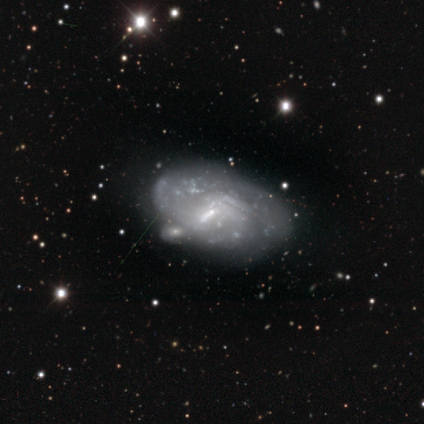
Smooth or featured: featured or disk — 60% (smooth — 40%)
Edge-on disk: no — 100%
Bar: no — 67% (weak — 33%)
Spiral arms: no — 100%
Bulge size: none — 67% (small — 33%)
Merging: minor disturbance — 60% (none — 20%)